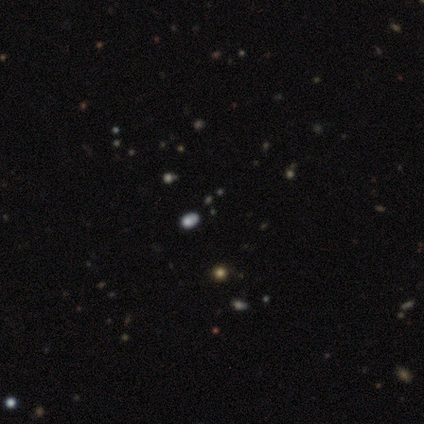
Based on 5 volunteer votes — smooth_or_featured: star or artifact (p=0.60) [alt: smooth p=0.20]